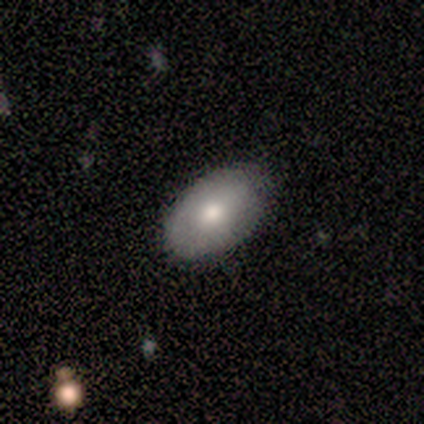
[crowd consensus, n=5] Volunteers were most divided on "merging": none: 60%, minor disturbance: 40%, major disturbance: 0%, merger: 0%. More confident: smooth or featured — smooth (100%); how rounded — in between (100%).